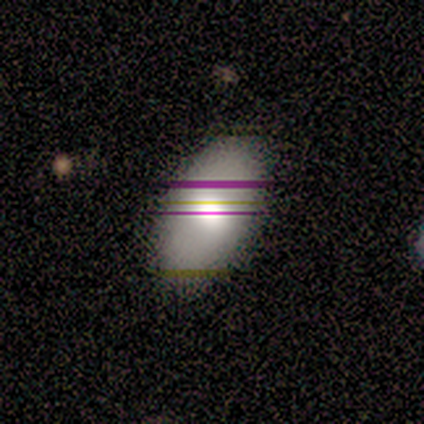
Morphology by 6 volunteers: A smooth galaxy with no disk features (50%) that is in between round and cigar-shaped (100%). Merging: none (100%).